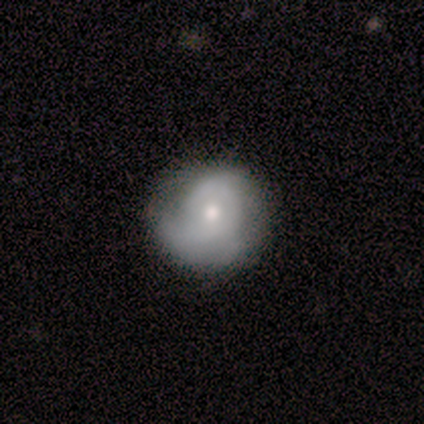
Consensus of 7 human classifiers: This is possibly a featured or disk galaxy (57%). It is clearly not viewed edge-on (100%). Bar: likely no (75%). Spiral arm pattern: likely yes (75%). Spiral arm count: likely 2 (67%). Spiral winding: likely medium (67%). Central bulge: possibly moderate (50%, tied with small). Merging: marginally minor disturbance (43%).